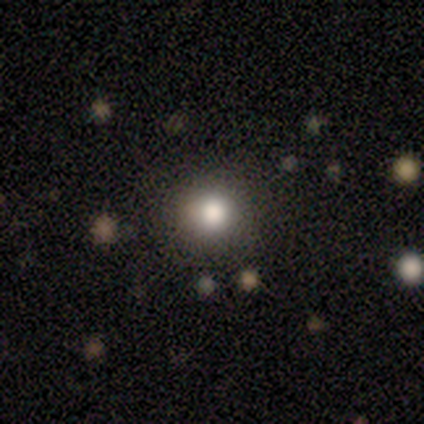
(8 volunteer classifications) Overall: smooth (100%). How rounded: round (100%). Merging: none (100%).